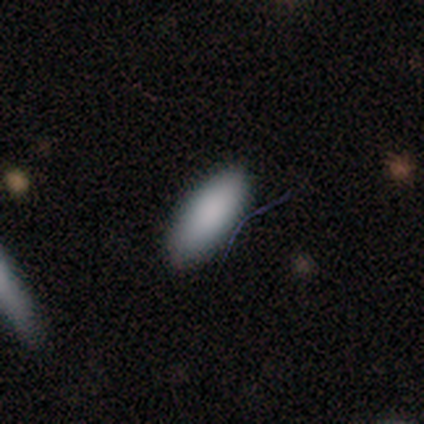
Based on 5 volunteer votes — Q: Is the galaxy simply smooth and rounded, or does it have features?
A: smooth — 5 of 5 (100%).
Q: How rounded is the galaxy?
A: in between — 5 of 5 (100%).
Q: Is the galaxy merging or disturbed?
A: none — 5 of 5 (100%).